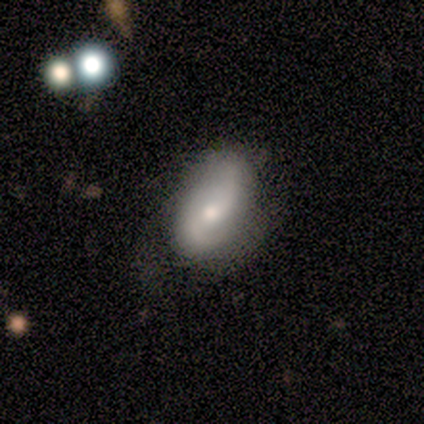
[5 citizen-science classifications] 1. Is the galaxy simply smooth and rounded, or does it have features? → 60% smooth, 40% featured or disk, 0% star or artifact.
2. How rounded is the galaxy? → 67% in between, 33% round, 0% cigar-shaped.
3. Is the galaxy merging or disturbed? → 80% minor disturbance, 20% none, 0% major disturbance, 0% merger.